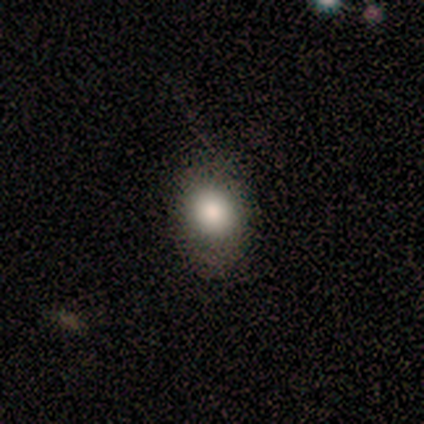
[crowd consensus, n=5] smooth 100%, featured or disk 0%, star or artifact 0%. Down the decision tree: how rounded — round (60%); merging — none (80%).